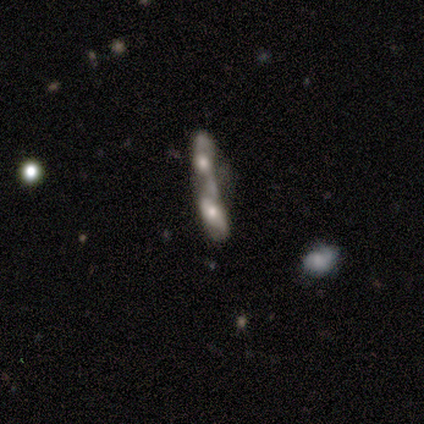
featured or disk 69%, smooth 23%, star or artifact 8%. Down the decision tree: edge-on disk — no (89%); bar — no (88%); spiral arms — no (75%); bulge size — small (50%); merging — merger (100%).